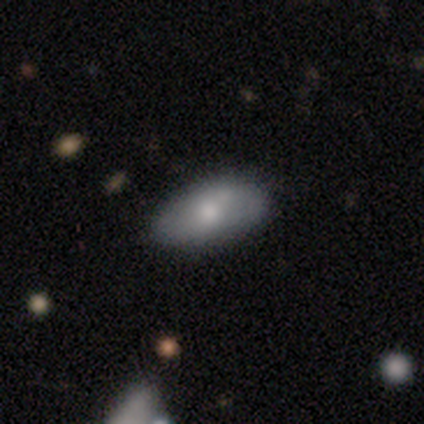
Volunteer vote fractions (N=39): Overall: smooth (74%). How rounded: in between (79%). Merging: none (83%).